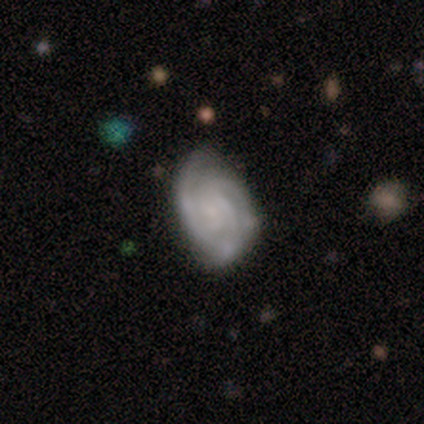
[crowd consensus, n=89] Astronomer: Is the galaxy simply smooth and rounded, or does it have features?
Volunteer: featured or disk — 84%.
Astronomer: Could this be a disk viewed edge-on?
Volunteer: no — 99%.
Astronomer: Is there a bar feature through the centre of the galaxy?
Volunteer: no — 68%.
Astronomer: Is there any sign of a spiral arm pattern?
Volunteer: yes — 95%.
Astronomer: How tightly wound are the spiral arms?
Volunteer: tight — 64%.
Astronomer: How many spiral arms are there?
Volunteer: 3 — 67%.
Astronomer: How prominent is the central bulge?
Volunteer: small — 53% (runner-up: none, 42%).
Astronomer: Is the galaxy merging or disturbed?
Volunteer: none — 60%.